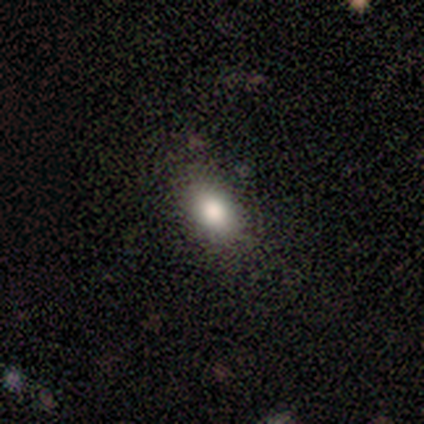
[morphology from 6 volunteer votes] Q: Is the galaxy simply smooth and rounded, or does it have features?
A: smooth — 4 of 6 (67%).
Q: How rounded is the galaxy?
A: in between — 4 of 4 (100%).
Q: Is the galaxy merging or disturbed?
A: none — 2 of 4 (50%, tied with minor disturbance).